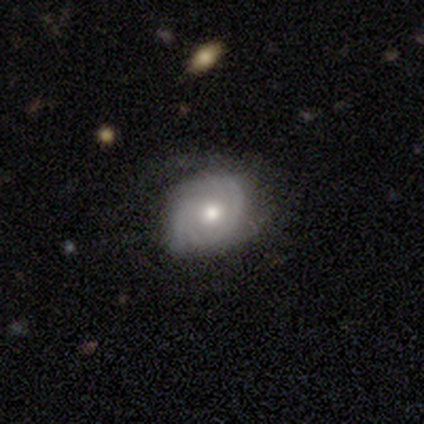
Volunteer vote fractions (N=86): Volunteers were most divided on "spiral arm count" (2-way tie): 2: 32%, can't tell: 32%, 3: 23%, 4: 7%, 1: 4%, more than 4: 2%. More confident: edge-on disk — no (100%); spiral arms — yes (92%); bar — no (77%); smooth or featured — featured or disk (71%); merging — none (66%); bulge size — moderate (66%); spiral winding — tight (64%).